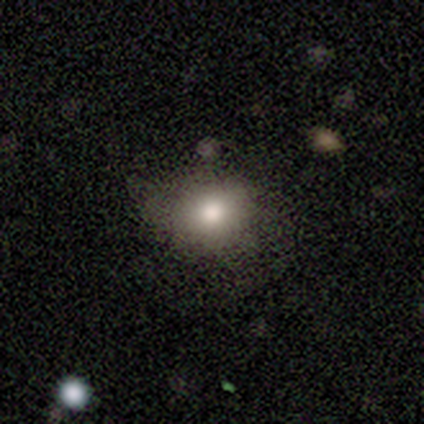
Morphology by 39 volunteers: Volunteers were most divided on "how rounded": round: 62%, in between: 35%, cigar-shaped: 4%. More confident: merging — none (73%); smooth or featured — smooth (67%).